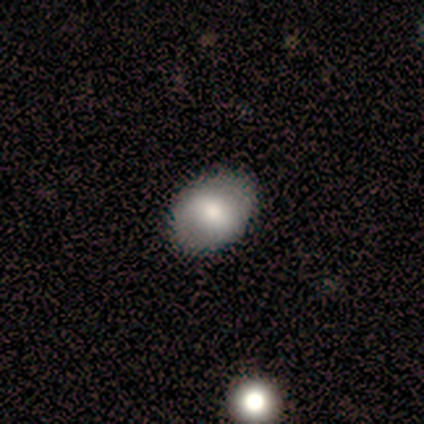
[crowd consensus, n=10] A smooth galaxy with no disk features (60%) that is in between round and cigar-shaped (100%).

Vote fractions:
- Smooth or featured? smooth: 60% / featured or disk: 40% / star or artifact: 0%
- How rounded? in between: 100% / round: 0% / cigar-shaped: 0%
- Merging? none: 90% / major disturbance: 10% / minor disturbance: 0% / merger: 0%